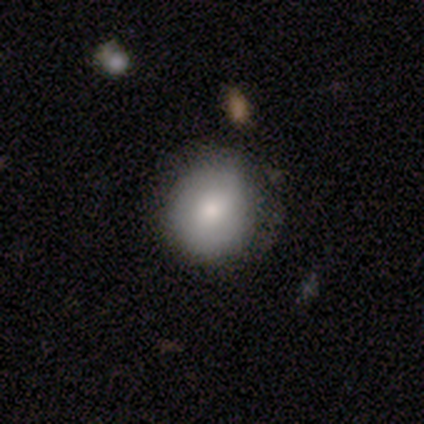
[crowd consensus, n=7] smooth-or-featured: smooth: 86% | featured or disk: 14% | star or artifact: 0%
  how-rounded: round: 83% | in between: 17% | cigar-shaped: 0%
  merging: none: 100% | minor disturbance: 0% | major disturbance: 0% | merger: 0%